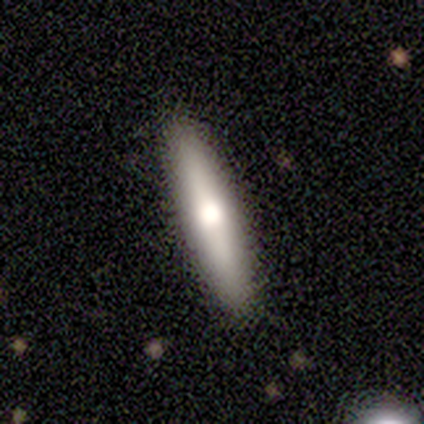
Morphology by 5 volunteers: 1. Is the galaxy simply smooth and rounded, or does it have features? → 80% smooth, 20% featured or disk, 0% star or artifact.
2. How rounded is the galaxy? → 100% cigar-shaped, 0% round, 0% in between.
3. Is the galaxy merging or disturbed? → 80% none, 20% minor disturbance, 0% major disturbance, 0% merger.